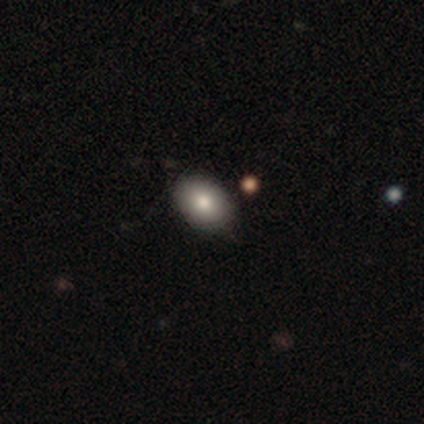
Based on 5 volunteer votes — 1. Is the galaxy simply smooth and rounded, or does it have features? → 100% smooth, 0% featured or disk, 0% star or artifact.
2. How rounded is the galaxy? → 60% in between, 40% round, 0% cigar-shaped.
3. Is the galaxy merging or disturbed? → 60% minor disturbance, 40% none, 0% major disturbance, 0% merger.